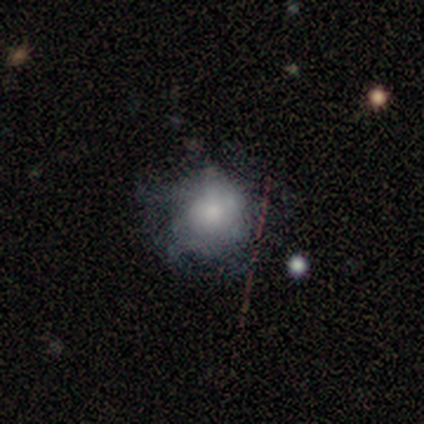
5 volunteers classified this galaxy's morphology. Smooth or featured?
  - featured or disk: 60% *
  - smooth: 40%
  - star or artifact: 0%
Edge-on disk?
  - no: 100% *
  - yes: 0%
Bar?
  - no: 67% *
  - weak: 33%
  - strong: 0%
Spiral arms?
  - no: 67% *
  - yes: 33%
Bulge size?
  - moderate: 100% *
  - dominant: 0%
  - large: 0%
  - small: 0%
  - none: 0%
Merging?
  - minor disturbance: 60% *
  - none: 40%
  - major disturbance: 0%
  - merger: 0%